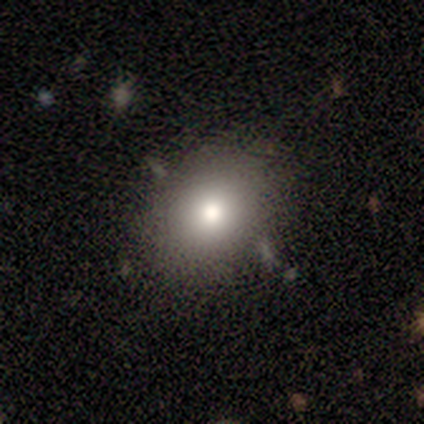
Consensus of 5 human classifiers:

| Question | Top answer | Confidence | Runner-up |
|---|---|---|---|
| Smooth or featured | smooth | 80% | featured or disk (20%) |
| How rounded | round | 50% | tied: in between (50%) |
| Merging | none | 80% | minor disturbance (20%) |